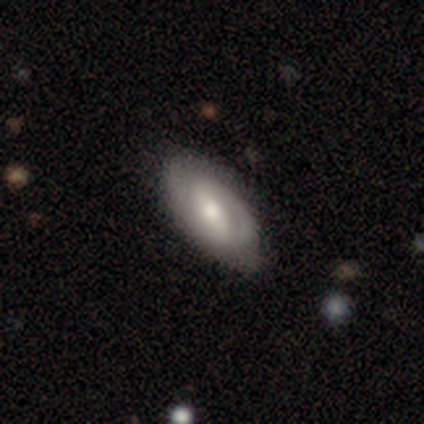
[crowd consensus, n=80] A featured or disk galaxy (64%) with a strong bar (45%, tied with weak), 2 (63%) tight (44%, tied with medium) spiral arms (87%) and a moderate central bulge (70%).

Vote fractions:
- Smooth or featured? featured or disk: 64% / smooth: 31% / star or artifact: 5%
- Edge-on disk? no: 92% / yes: 8%
- Bar? strong: 45% (tied) / weak: 45% (tied) / no: 11%
- Spiral arms? yes: 87% / no: 13%
- Spiral winding? tight: 44% (tied) / medium: 44% (tied) / loose: 12%
- Spiral arm count? 2: 63% / can't tell: 22% / 1: 12% / 3: 2% / 4: 0% / more than 4: 0%
- Bulge size? moderate: 70% / small: 19% / large: 11% / dominant: 0% / none: 0%
- Merging? none: 39% / minor disturbance: 11% / major disturbance: 3% / merger: 0%